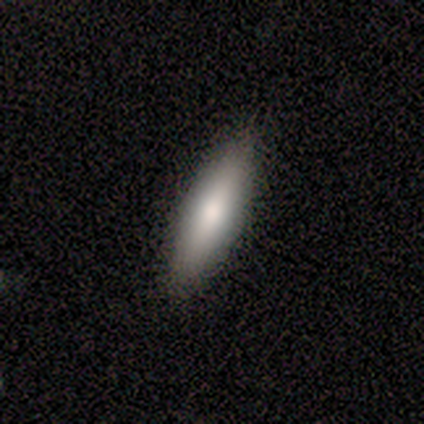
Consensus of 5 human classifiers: This is likely a smooth galaxy (60%). How rounded: likely in between (67%). Merging: clearly none (100%).